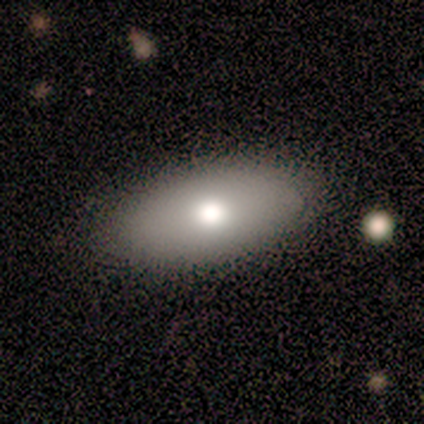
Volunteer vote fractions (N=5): A smooth galaxy with no disk features (80%) that is in between round and cigar-shaped (100%). Merging: none (100%).